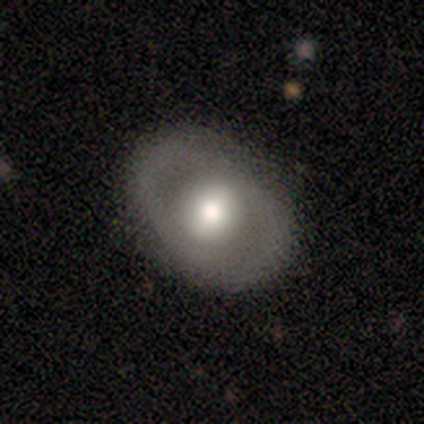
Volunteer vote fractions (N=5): Smooth or featured? 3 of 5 (60%) said smooth. How rounded? 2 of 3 (67%) said round. Merging? 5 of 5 (100%) said none.